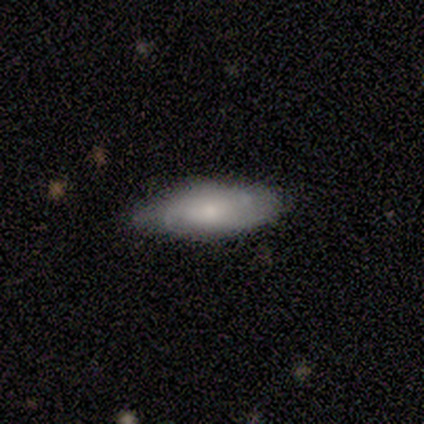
This is possibly a smooth galaxy (50%). How rounded: likely in between (68%). Merging: likely none (71%).